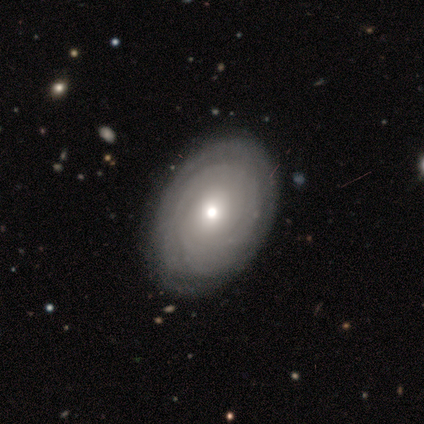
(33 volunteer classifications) Volunteers were most divided on "bulge size": moderate: 52%, small: 29%, large: 14%, dominant: 5%, none: 0%. More confident: edge-on disk — no (95%); bar — no (95%); spiral winding — tight (89%); spiral arms — yes (86%); merging — none (77%); spiral arm count — can't tell (72%); smooth or featured — featured or disk (67%).